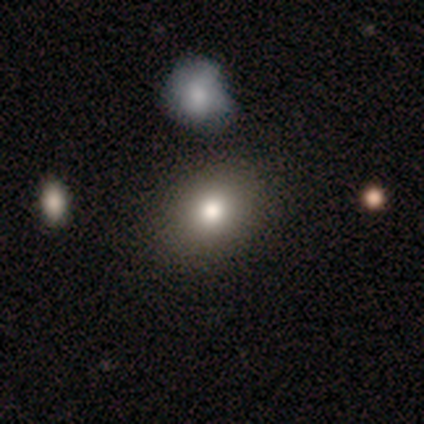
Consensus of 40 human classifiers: smooth-or-featured: smooth: 88% | star or artifact: 8% | featured or disk: 5%
  how-rounded: round: 57% | in between: 43% | cigar-shaped: 0%
  merging: none: 62% | minor disturbance: 11% | merger: 11% | major disturbance: 3%